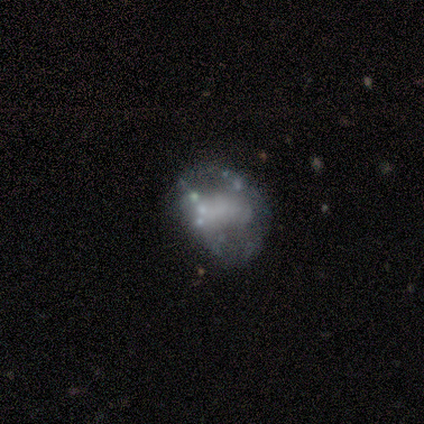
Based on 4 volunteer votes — Smooth or featured: smooth — 50% (tied with featured or disk — 50%)
How rounded: in between — 100%
Merging: none — 50% (tied with minor disturbance — 50%)